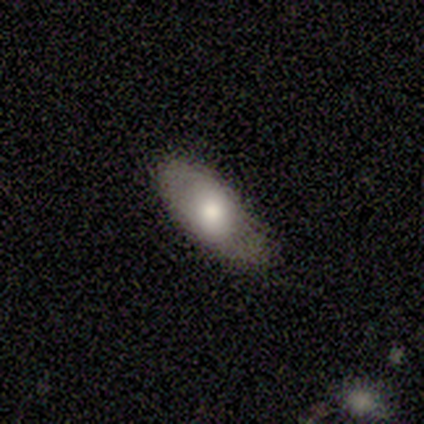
Smooth or featured: smooth — 60% (featured or disk — 40%)
How rounded: in between — 100%
Merging: none — 60% (minor disturbance — 40%)